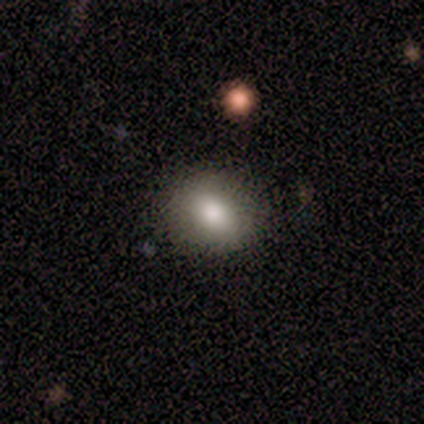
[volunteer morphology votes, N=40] A smooth galaxy with no disk features (65%) that is round (62%). Merging: none (87%).